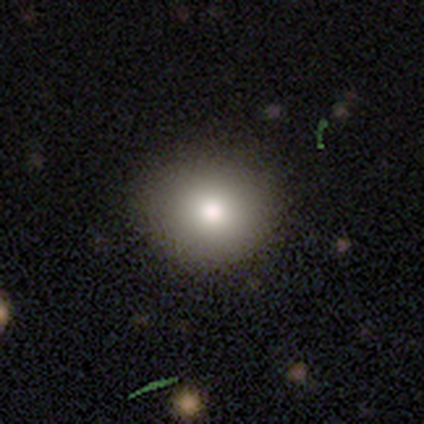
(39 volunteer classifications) Smooth or featured?
  - smooth: 82% *
  - featured or disk: 13%
  - star or artifact: 5%
How rounded?
  - round: 78% *
  - in between: 22%
  - cigar-shaped: 0%
Merging?
  - none: 70% *
  - minor disturbance: 3%
  - major disturbance: 0%
  - merger: 0%